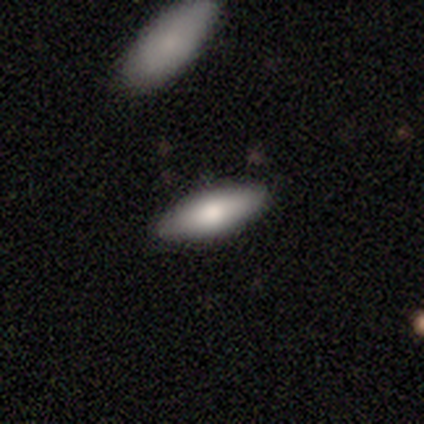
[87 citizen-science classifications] This appears to be a smooth galaxy with no disk features (74%) that is in between round and cigar-shaped (58%). Merging: none (89%).